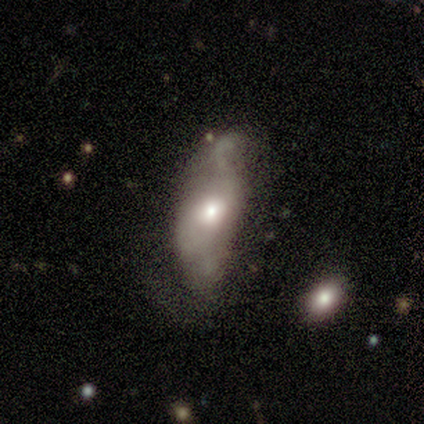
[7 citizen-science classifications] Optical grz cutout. It shows a smooth galaxy with no disk features (43%, tied with featured or disk) that is in between round and cigar-shaped (100%). Merging: none (33%, tied with major disturbance).